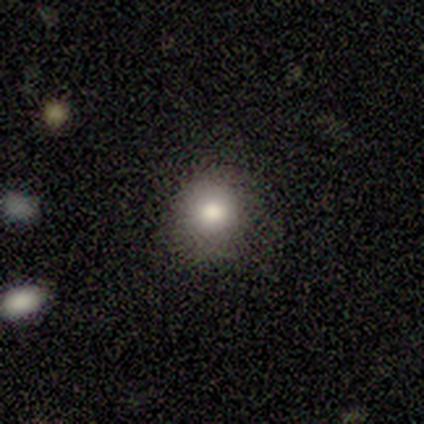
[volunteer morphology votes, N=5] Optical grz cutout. It shows a smooth galaxy with no disk features (100%) that is round (80%). Merging: none (80%).